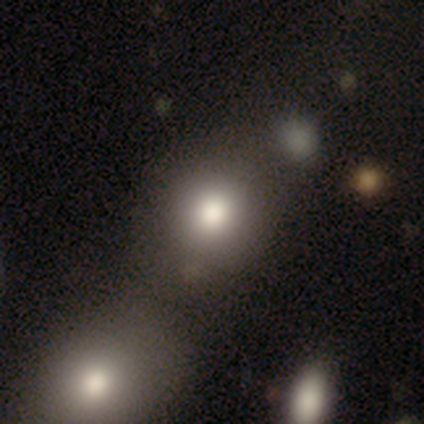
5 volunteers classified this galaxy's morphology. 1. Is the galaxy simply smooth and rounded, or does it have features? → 80% smooth, 20% featured or disk, 0% star or artifact.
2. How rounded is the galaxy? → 100% round, 0% in between, 0% cigar-shaped.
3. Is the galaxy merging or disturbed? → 60% none, 20% minor disturbance, 20% merger, 0% major disturbance.